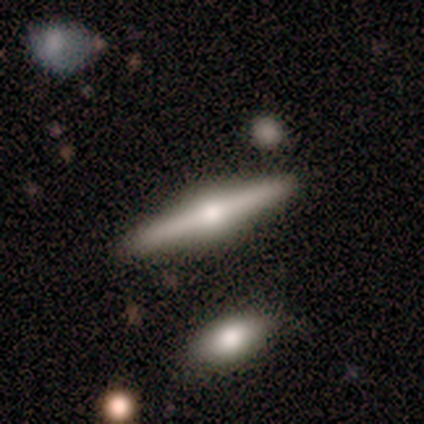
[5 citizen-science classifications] Overall: featured or disk (80%). Edge-on disk: yes (100%). Edge-on bulge: rounded (100%). Merging: none (100%).